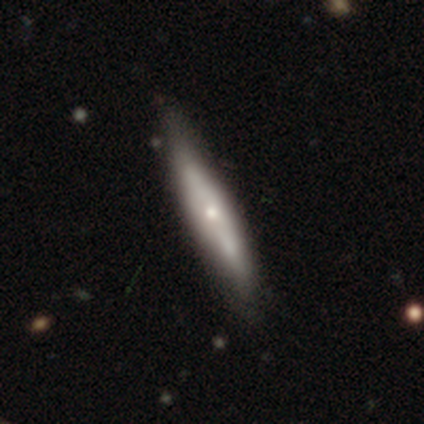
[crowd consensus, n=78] A featured or disk galaxy (59%) viewed edge-on (76%) with a rounded central bulge (89%).

Vote fractions:
- Smooth or featured? featured or disk: 59% / smooth: 37% / star or artifact: 4%
- Edge-on disk? yes: 76% / no: 24%
- Edge-on bulge? rounded: 89% / none: 9% / boxy: 3%
- Merging? none: 32% / minor disturbance: 13% / major disturbance: 4% / merger: 4%